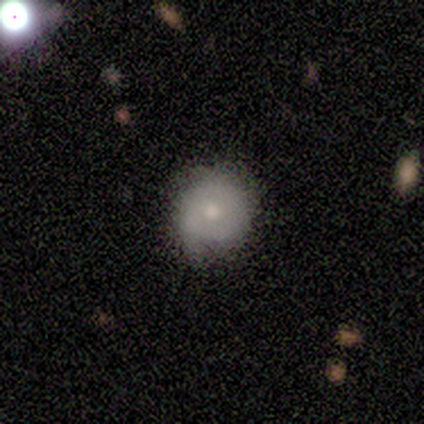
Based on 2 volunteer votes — This is clearly a smooth galaxy (100%). How rounded: clearly round (100%). Merging: clearly none (100%).